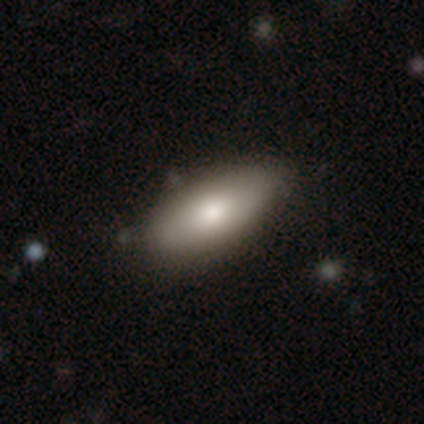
A smooth galaxy with no disk features (83%) that is in between round and cigar-shaped (91%). Merging: none (66%).